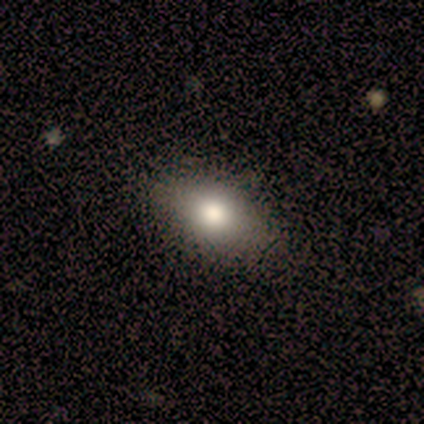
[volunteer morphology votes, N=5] This appears to be a smooth galaxy with no disk features (80%) that is in between round and cigar-shaped (100%). Merging: none (100%).